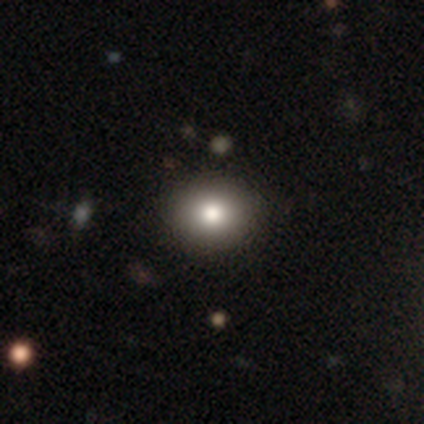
A smooth galaxy with no disk features (92%) that is round (67%). Merging: none (92%).